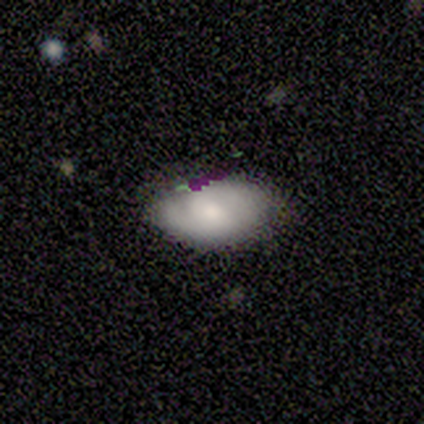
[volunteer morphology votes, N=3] Q: Smooth or featured?
A: smooth (33%); tied with: featured or disk (33%); star or artifact (33%)
Q: How rounded?
A: in between (100%)
Q: Merging?
A: none (50%); tied with: minor disturbance (50%)